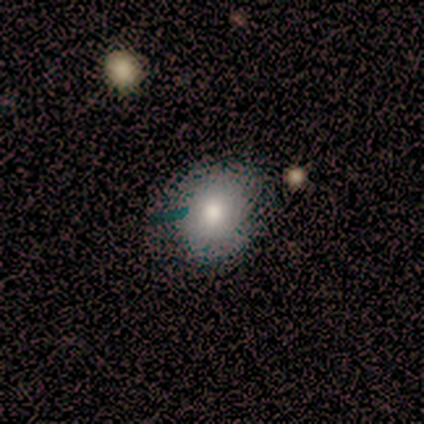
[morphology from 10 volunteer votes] Smooth or featured: smooth — 80% (featured or disk — 10%)
How rounded: round — 100%
Merging: none — 78% (minor disturbance — 22%)